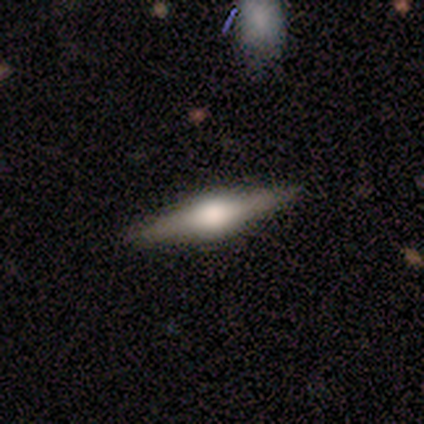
Smooth or featured: featured or disk — 80% (star or artifact — 20%)
Edge-on disk: yes — 75% (no — 25%)
Edge-on bulge: rounded — 100%
Merging: none — 100%